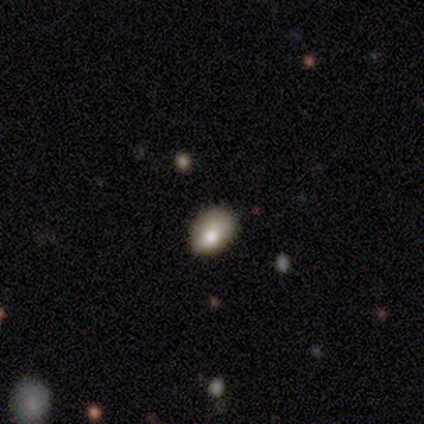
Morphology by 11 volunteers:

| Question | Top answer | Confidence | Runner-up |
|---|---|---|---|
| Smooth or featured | smooth | 55% | star or artifact (27%) |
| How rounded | in between | 67% | round (33%) |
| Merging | none | 62% | minor disturbance (25%) |